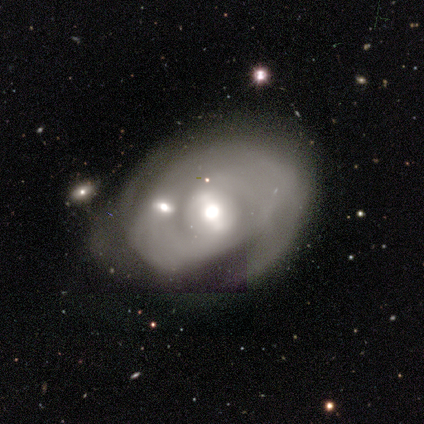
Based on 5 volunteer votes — Overall: featured or disk (80%). Edge-on disk: no (100%). Bar: weak (75%). Spiral arms: yes (100%). Spiral arm count: can't tell (75%). Spiral winding: tight (75%). Bulge size: moderate (75%). Merging: minor disturbance (50%; none 25%).